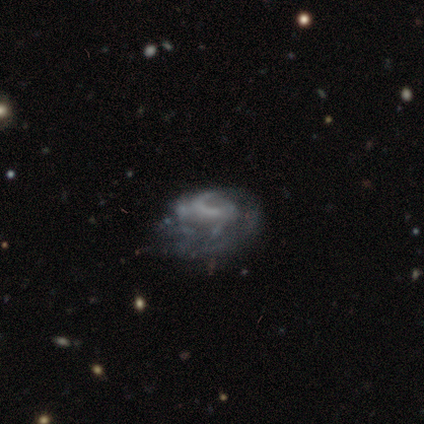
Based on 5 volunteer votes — Volunteers were most divided on "spiral winding" (2-way tie): tight: 40%, loose: 40%, medium: 20%. More confident: smooth or featured — featured or disk (100%); edge-on disk — no (100%); spiral arms — yes (100%); bar — no (80%); spiral arm count — can't tell (60%); bulge size — none (60%); merging — minor disturbance (60%).